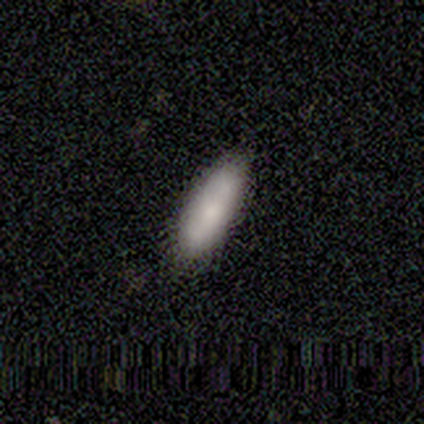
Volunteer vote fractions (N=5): A smooth galaxy with no disk features (80%) that is in between round and cigar-shaped (50%, tied with cigar-shaped).

Vote fractions:
- Smooth or featured? smooth: 80% / featured or disk: 20% / star or artifact: 0%
- How rounded? in between: 50% (tied) / cigar-shaped: 50% (tied) / round: 0%
- Merging? none: 80% / minor disturbance: 20% / major disturbance: 0% / merger: 0%